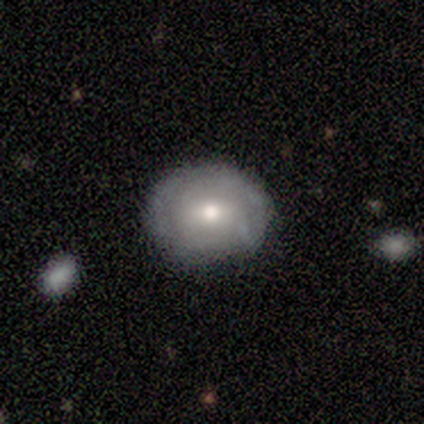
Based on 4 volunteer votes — smooth_or_featured: smooth (p=0.50) [alt: featured or disk p=0.25]
how_rounded: round (p=0.50) [tied with: in between p=0.50]
merging: none (p=1.00)